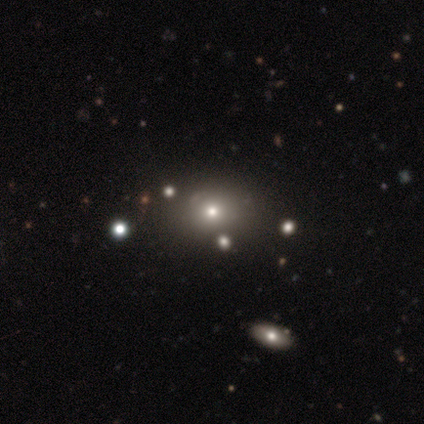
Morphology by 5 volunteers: Smooth or featured: smooth — 80% (star or artifact — 20%)
How rounded: round — 50% (tied with in between — 50%)
Merging: none — 75% (minor disturbance — 25%)